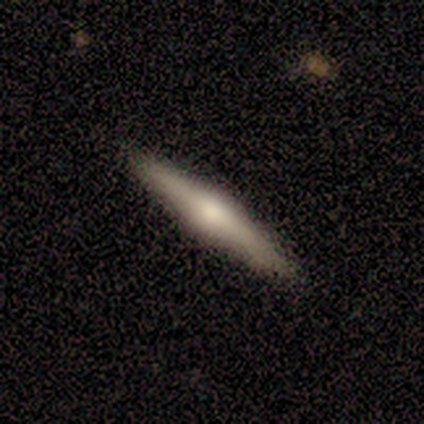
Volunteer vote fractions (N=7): smooth_or_featured: smooth (p=0.57) [alt: featured or disk p=0.43]
how_rounded: cigar-shaped (p=1.00)
merging: none (p=1.00)